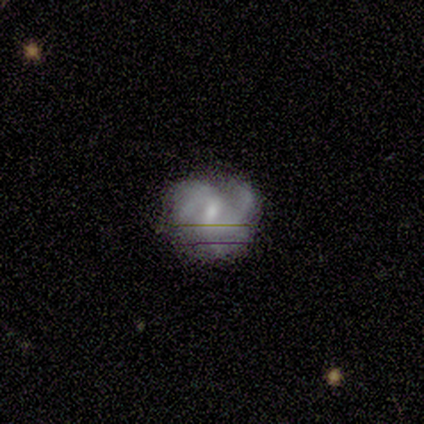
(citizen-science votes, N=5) Smooth or featured? 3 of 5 (60%) said featured or disk. Edge-on disk? 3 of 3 (100%) said no. Bar? 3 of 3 (100%) said weak. Spiral arms? 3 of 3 (100%) said yes. Spiral winding? 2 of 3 (67%) said loose. Spiral arm count? 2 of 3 (67%) said 2. Bulge size? 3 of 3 (100%) said small. Merging? 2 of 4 (50%) said minor disturbance.